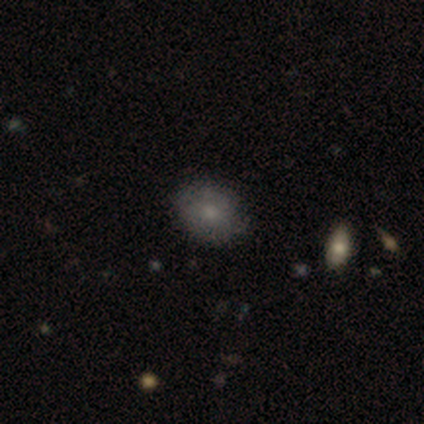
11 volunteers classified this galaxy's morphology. This appears to be a smooth galaxy with no disk features (55%) that is round (83%). Merging: none (88%).